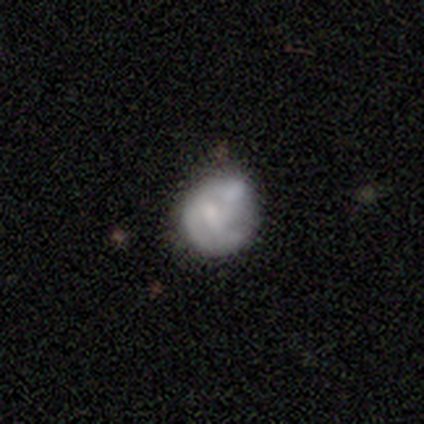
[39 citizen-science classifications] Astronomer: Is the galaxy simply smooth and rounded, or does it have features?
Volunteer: smooth — 51% (runner-up: featured or disk, 44%).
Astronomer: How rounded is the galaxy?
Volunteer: round — 75%.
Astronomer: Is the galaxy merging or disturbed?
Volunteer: none — 43% (runner-up: minor disturbance, 38%).